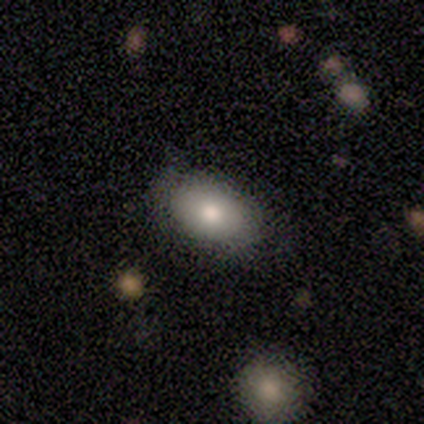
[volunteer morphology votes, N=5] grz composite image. It shows a smooth galaxy with no disk features (60%) that is in between round and cigar-shaped (100%). Merging: none (100%).